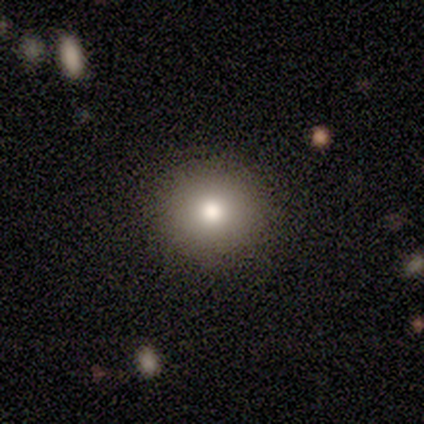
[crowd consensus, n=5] smooth_or_featured: smooth (p=0.80) [alt: featured or disk p=0.20]
how_rounded: round (p=1.00)
merging: none (p=1.00)